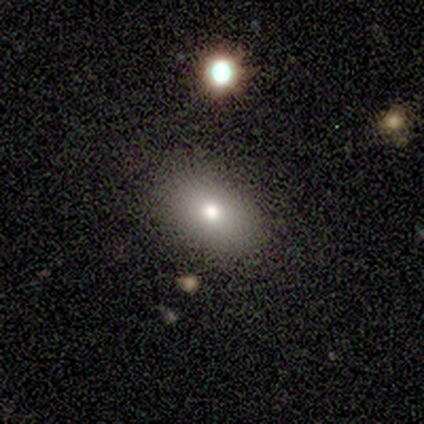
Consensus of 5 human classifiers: smooth_or_featured: smooth (p=1.00)
how_rounded: in between (p=0.80) [alt: round p=0.20]
merging: none (p=1.00)